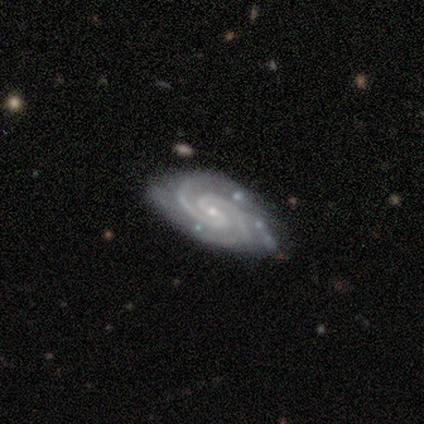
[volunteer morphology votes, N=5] A featured or disk galaxy (100%) with a weak bar (60%), 2 (80%) tight (80%) spiral arms (100%) and a small central bulge (100%).

Vote fractions:
- Smooth or featured? featured or disk: 100% / smooth: 0% / star or artifact: 0%
- Edge-on disk? no: 100% / yes: 0%
- Bar? weak: 60% / strong: 20% / no: 20%
- Spiral arms? yes: 100% / no: 0%
- Spiral winding? tight: 80% / medium: 20% / loose: 0%
- Spiral arm count? 2: 80% / can't tell: 20% / 1: 0% / 3: 0% / 4: 0% / more than 4: 0%
- Bulge size? small: 100% / dominant: 0% / large: 0% / moderate: 0% / none: 0%
- Merging? none: 60% / minor disturbance: 40% / major disturbance: 0% / merger: 0%